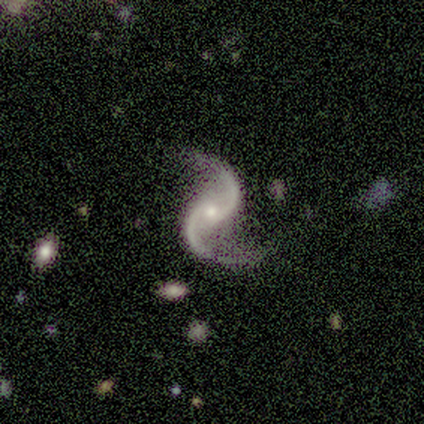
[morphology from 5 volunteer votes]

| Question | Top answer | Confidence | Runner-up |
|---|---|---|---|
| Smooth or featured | featured or disk | 100% | — |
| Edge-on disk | no | 100% | — |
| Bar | weak | 80% | no (20%) |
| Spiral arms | yes | 100% | — |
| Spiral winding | loose | 60% | medium (40%) |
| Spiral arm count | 2 | 100% | — |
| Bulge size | moderate | 60% | small (40%) |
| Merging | none | 60% | minor disturbance (40%) |